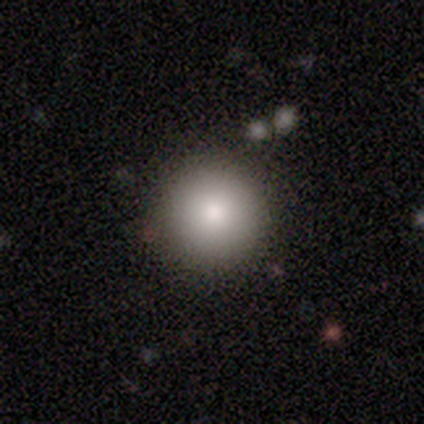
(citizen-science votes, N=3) Q: Smooth or featured?
A: smooth (100%)
Q: How rounded?
A: round (100%)
Q: Merging?
A: none (100%)